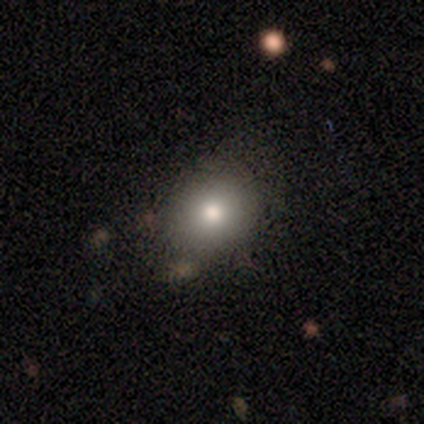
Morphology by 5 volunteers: smooth 60%, featured or disk 20%, star or artifact 20%. Down the decision tree: how rounded — round (100%); merging — none (100%).